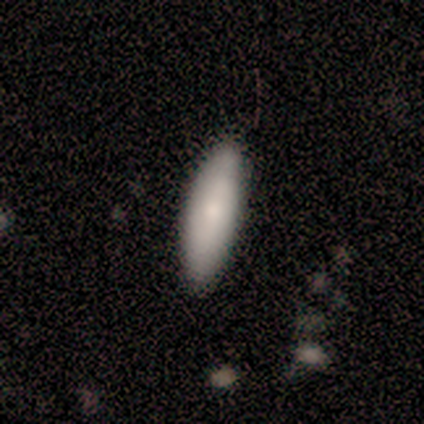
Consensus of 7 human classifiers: smooth-or-featured: smooth: 86% | featured or disk: 14% | star or artifact: 0%
  how-rounded: cigar-shaped: 50% | in between: 33% | round: 17%
  merging: none: 100% | minor disturbance: 0% | major disturbance: 0% | merger: 0%